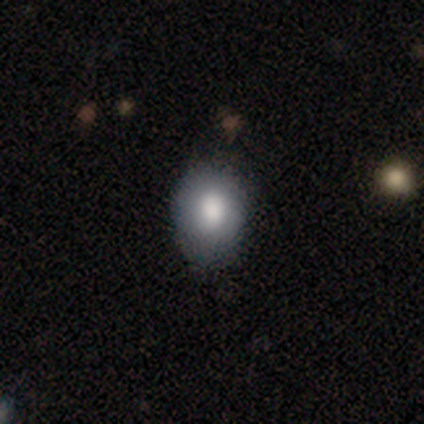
smooth 100%, featured or disk 0%, star or artifact 0%. Down the decision tree: how rounded — in between (80%); merging — none (60%).